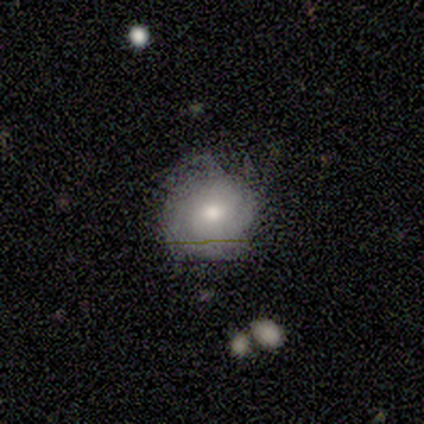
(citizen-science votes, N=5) smooth_or_featured: smooth (p=0.40) [tied with: star or artifact p=0.40]
how_rounded: round (p=1.00)
merging: major disturbance (p=0.67) [alt: minor disturbance p=0.33]